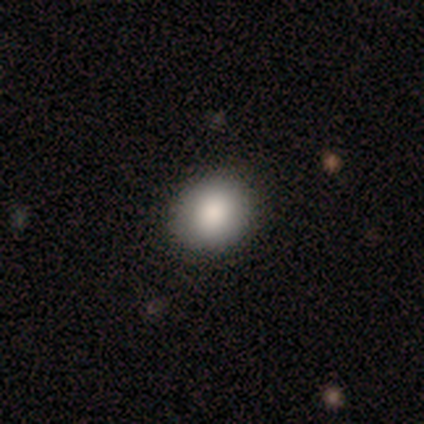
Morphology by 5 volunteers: Smooth or featured? smooth (100%)
How rounded? round (100%)
Merging? none (100%)